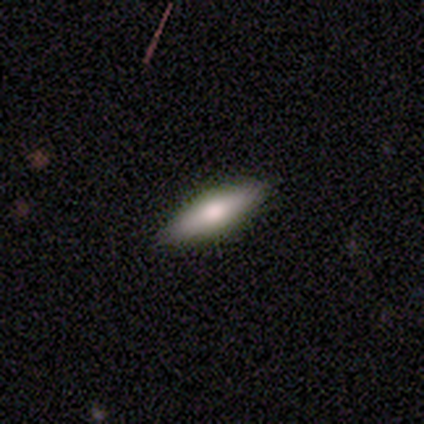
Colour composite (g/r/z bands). It shows a featured or disk galaxy (60%) viewed edge-on (67%) with no central bulge (50%, tied with rounded). Merging: none (100%).